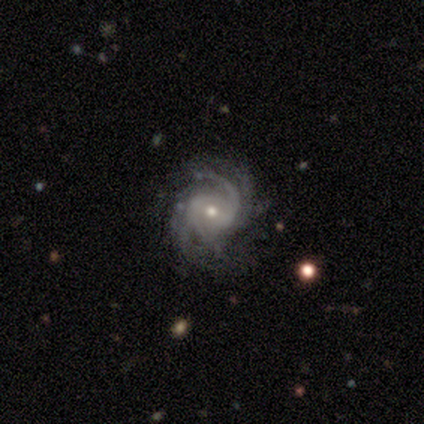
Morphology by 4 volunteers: Smooth or featured? 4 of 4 (100%) said featured or disk. Edge-on disk? 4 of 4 (100%) said no. Bar? 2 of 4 (50%, tied with weak) said strong. Spiral arms? 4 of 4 (100%) said yes. Spiral winding? 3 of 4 (75%) said medium. Spiral arm count? 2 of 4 (50%) said 2. Bulge size? 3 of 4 (75%) said moderate. Merging? 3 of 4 (75%) said none.